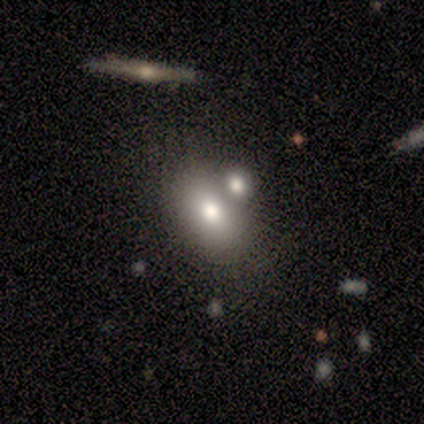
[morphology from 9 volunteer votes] smooth 89%, featured or disk 11%, star or artifact 0%. Down the decision tree: how rounded — in between (100%); merging — none (56%).